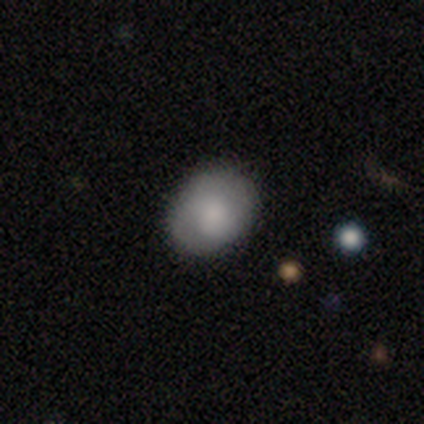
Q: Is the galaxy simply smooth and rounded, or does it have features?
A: smooth — 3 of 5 (60%).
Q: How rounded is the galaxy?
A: round — 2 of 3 (67%).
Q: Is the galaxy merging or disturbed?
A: none — 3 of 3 (100%).